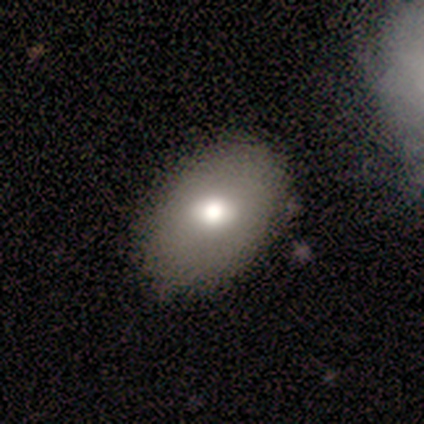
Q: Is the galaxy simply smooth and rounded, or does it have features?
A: smooth — 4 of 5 (80%).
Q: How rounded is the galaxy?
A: in between — 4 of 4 (100%).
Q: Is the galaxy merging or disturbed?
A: none — 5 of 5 (100%).